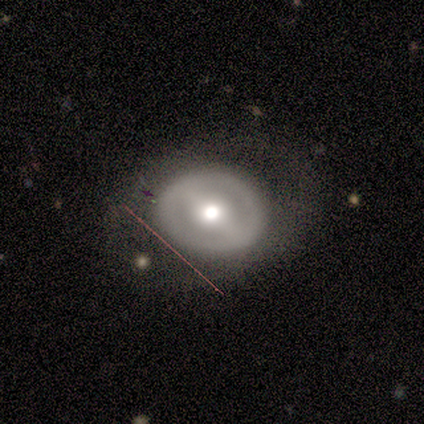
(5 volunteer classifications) smooth_or_featured: smooth (p=0.60) [alt: featured or disk p=0.20]
how_rounded: round (p=1.00)
merging: none (p=0.50) [alt: minor disturbance p=0.25]